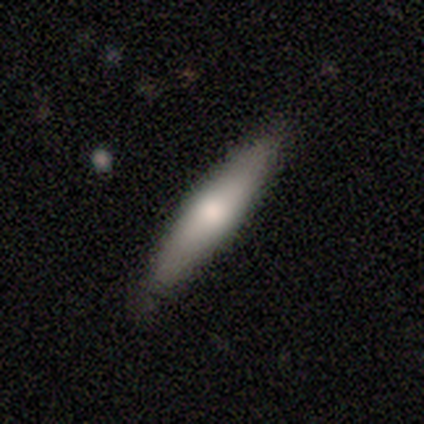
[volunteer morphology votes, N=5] smooth_or_featured: featured or disk (p=0.60) [alt: smooth p=0.40]
disk_edge_on: yes (p=1.00)
edge_on_bulge: rounded (p=1.00)
merging: none (p=0.80) [alt: minor disturbance p=0.20]